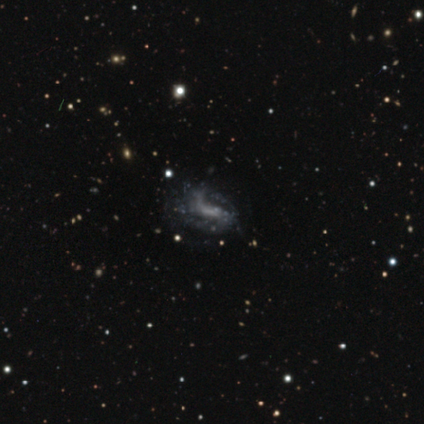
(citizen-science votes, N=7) Smooth or featured? featured or disk (86%)
Edge-on disk? no (100%)
Bar? no (67%)
Spiral arms? yes (50%, tied with no)
Spiral winding? loose (100%)
Spiral arm count? 2 (100%)
Bulge size? moderate (33%, tied with none)
Merging? none (50%)